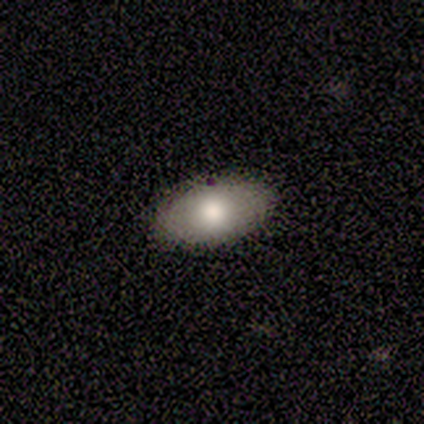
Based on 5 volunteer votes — This appears to be a smooth galaxy with no disk features (60%) that is in between round and cigar-shaped (100%). Merging: none (75%).